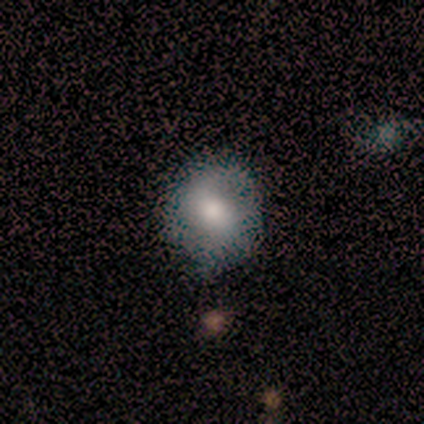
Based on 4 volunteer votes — smooth 100%, featured or disk 0%, star or artifact 0%. Down the decision tree: how rounded — round (100%); merging — none (50%, tied with minor disturbance).